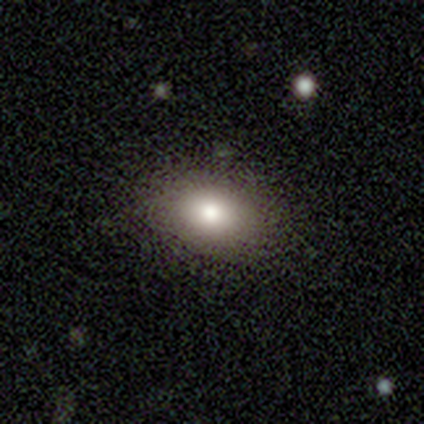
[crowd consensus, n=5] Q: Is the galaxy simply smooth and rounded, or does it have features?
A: smooth — 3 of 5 (60%).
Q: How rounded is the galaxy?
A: in between — 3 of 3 (100%).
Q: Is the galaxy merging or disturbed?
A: none — 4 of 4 (100%).